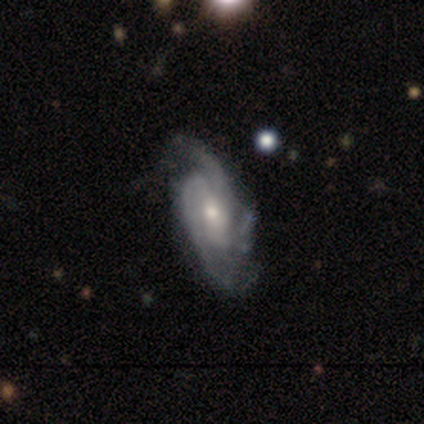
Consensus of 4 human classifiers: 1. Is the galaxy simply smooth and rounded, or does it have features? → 100% featured or disk, 0% smooth, 0% star or artifact.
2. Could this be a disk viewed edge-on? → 75% no, 25% yes.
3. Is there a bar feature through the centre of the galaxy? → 67% no, 33% weak, 0% strong.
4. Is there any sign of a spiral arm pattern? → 100% yes, 0% no.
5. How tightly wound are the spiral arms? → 33% tight (tied), 33% medium (tied), 33% loose (tied).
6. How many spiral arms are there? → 33% 2 (tied), 33% 3 (tied), 33% can't tell (tied), 0% 1, 0% 4, 0% more than 4.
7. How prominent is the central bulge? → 100% small, 0% dominant, 0% large, 0% moderate, 0% none.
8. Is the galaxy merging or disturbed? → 75% none, 25% minor disturbance, 0% major disturbance, 0% merger.